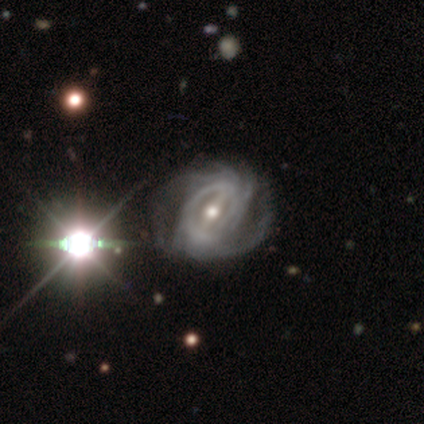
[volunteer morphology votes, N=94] featured or disk 82%, star or artifact 16%, smooth 2%. Down the decision tree: edge-on disk — no (97%); bar — strong (64%); spiral arms — yes (95%); spiral arm count — can't tell (39%); spiral winding — tight (52%); bulge size — moderate (67%); merging — none (46%).